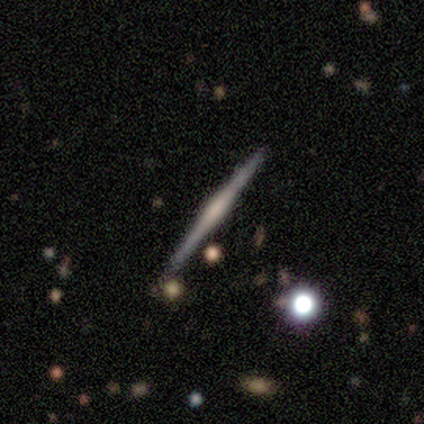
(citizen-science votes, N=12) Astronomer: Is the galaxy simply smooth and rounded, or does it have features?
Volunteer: featured or disk — 92%.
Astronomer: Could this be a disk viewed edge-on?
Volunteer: yes — 100%.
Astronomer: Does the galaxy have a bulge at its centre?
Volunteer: rounded — 55%.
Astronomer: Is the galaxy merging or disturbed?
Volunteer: none — 67%.